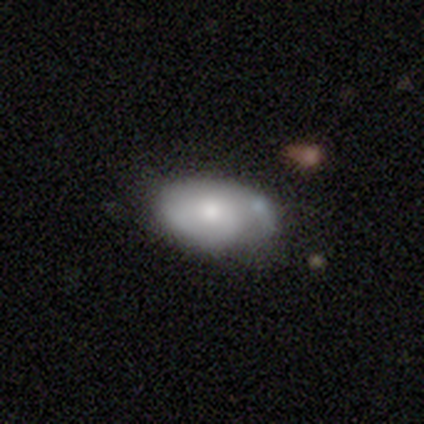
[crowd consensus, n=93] Smooth or featured: smooth — 57% (featured or disk — 39%)
How rounded: in between — 91% (round — 8%)
Merging: none — 54% (minor disturbance — 31%)